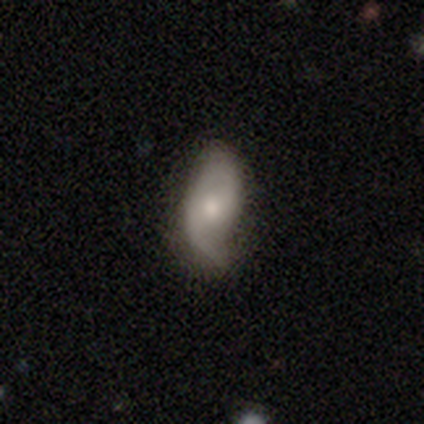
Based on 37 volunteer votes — Overall: featured or disk (62%; smooth 35%). Edge-on disk: no (100%). Bar: no (61%; weak 35%). Spiral arms: yes (91%). Spiral arm count: 2 (76%). Spiral winding: loose (71%). Bulge size: moderate (61%; small 35%). Merging: none (47%; minor disturbance 42%).